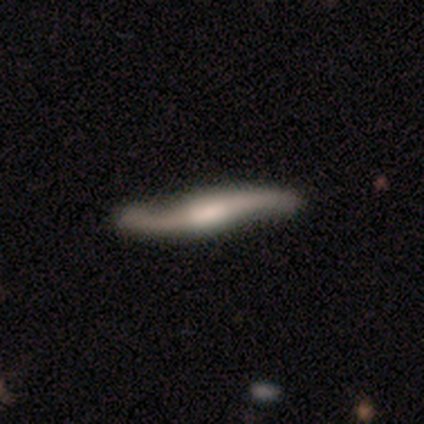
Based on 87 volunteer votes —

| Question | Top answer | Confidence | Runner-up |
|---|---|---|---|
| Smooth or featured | featured or disk | 72% | smooth (22%) |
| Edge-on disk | no | 51% | yes (49%) |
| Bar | weak | 53% | no (38%) |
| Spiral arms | yes | 97% | no (3%) |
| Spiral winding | loose | 94% | tight (3%) |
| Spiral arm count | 2 | 97% | 1 (3%) |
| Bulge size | moderate | 47% | large (22%) |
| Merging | none | 82% | minor disturbance (12%) |